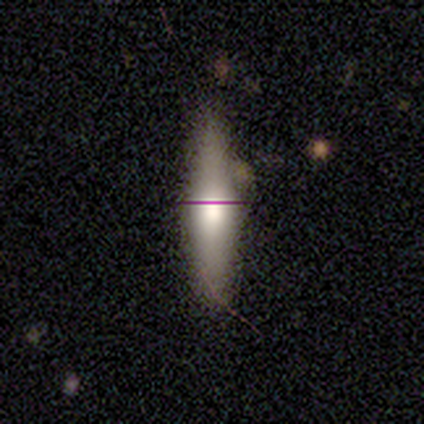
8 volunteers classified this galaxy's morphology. Q: Smooth or featured?
A: featured or disk (62%); runner-up: smooth (38%)
Q: Edge-on disk?
A: yes (100%)
Q: Edge-on bulge?
A: rounded (60%); runner-up: boxy (40%)
Q: Merging?
A: none (88%); runner-up: merger (12%)